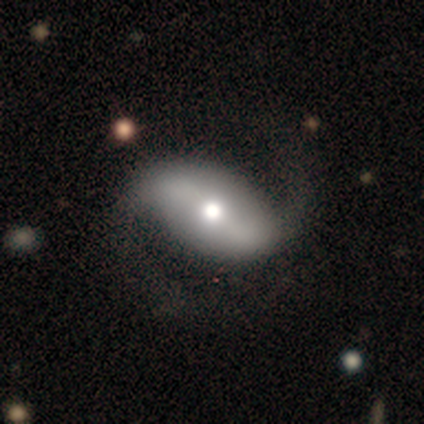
smooth_or_featured: featured or disk (p=1.00)
disk_edge_on: no (p=1.00)
bar: strong (p=0.50) [tied with: no p=0.50]
has_spiral_arms: yes (p=1.00)
spiral_winding: loose (p=1.00)
spiral_arm_count: 2 (p=1.00)
bulge_size: moderate (p=0.75) [alt: large p=0.25]
merging: none (p=1.00)